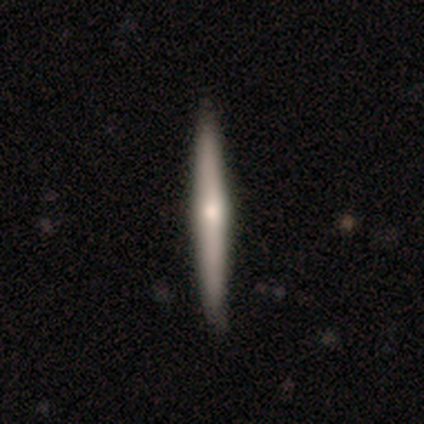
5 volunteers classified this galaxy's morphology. smooth-or-featured: featured or disk: 80% | smooth: 20% | star or artifact: 0%
  disk-edge-on: yes: 100% | no: 0%
    edge-on-bulge: none: 50% (tied) | rounded: 50% (tied) | boxy: 0%
  merging: none: 100% | minor disturbance: 0% | major disturbance: 0% | merger: 0%